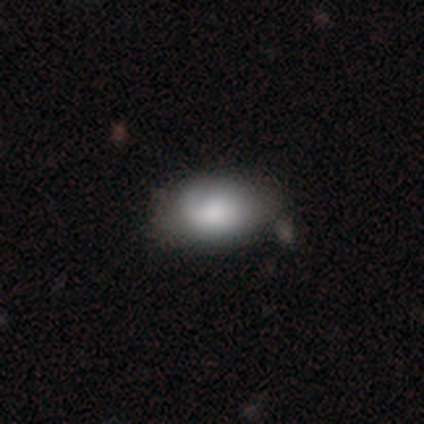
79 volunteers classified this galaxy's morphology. A smooth galaxy with no disk features (78%) that is in between round and cigar-shaped (87%). Merging: none (26%).